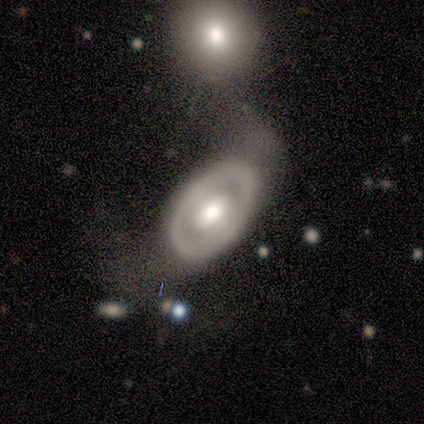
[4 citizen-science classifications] Smooth or featured? 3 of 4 (75%) said featured or disk. Edge-on disk? 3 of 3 (100%) said no. Bar? 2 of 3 (67%) said no. Spiral arms? 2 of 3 (67%) said no. Bulge size? 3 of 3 (100%) said moderate. Merging? 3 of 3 (100%) said major disturbance.